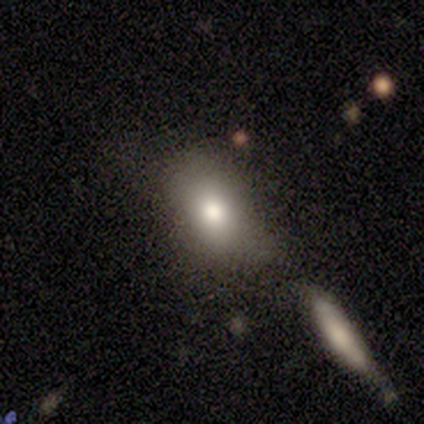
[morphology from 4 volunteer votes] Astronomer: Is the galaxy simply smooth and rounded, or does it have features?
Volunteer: smooth — 50%, tied with star or artifact at 50%.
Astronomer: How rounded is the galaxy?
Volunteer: in between — 100%.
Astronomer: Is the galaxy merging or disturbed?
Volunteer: minor disturbance — 100%.